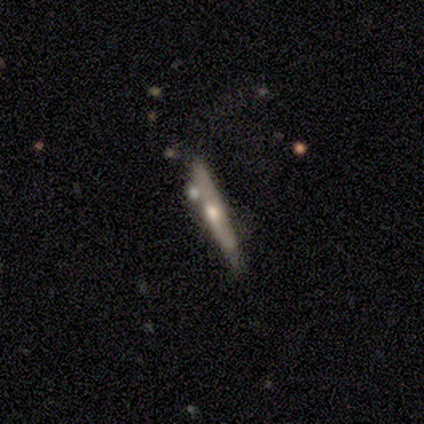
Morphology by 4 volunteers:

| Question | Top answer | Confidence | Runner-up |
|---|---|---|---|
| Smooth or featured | featured or disk | 75% | smooth (25%) |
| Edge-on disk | yes | 100% | — |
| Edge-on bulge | none | 67% | rounded (33%) |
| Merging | none | 75% | merger (25%) |